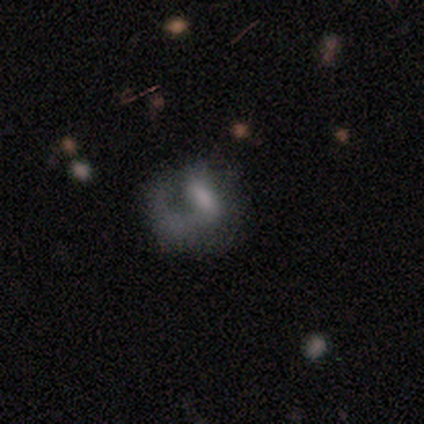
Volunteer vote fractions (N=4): smooth-or-featured: smooth: 50% (tied) | featured or disk: 50% (tied) | star or artifact: 0%
  how-rounded: round: 50% (tied) | in between: 50% (tied) | cigar-shaped: 0%
  merging: none: 25% (tied) | minor disturbance: 25% (tied) | major disturbance: 25% (tied) | merger: 25% (tied)